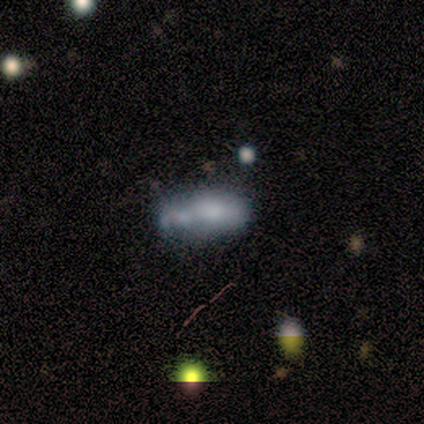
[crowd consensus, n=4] Q: Smooth or featured?
A: smooth (50%); tied with: featured or disk (50%)
Q: How rounded?
A: in between (100%)
Q: Merging?
A: major disturbance (50%); runner-up: none (25%)